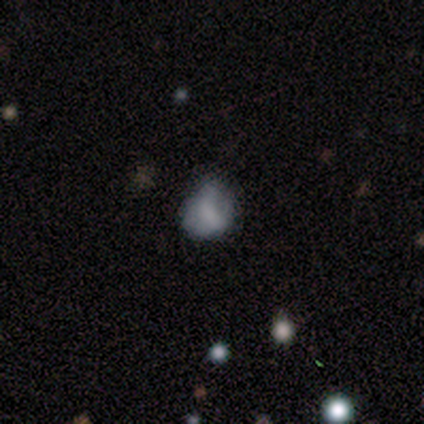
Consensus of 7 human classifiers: Smooth or featured? smooth (71%)
How rounded? in between (60%)
Merging? none (57%)